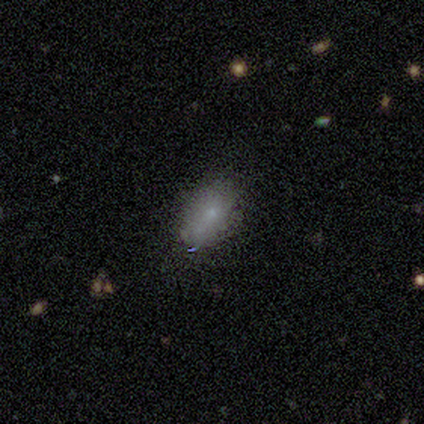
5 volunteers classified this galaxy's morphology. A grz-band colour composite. It shows a smooth galaxy with no disk features (100%) that is in between round and cigar-shaped (100%). Merging: none (80%).